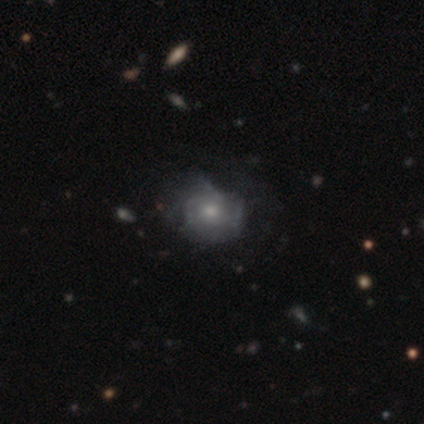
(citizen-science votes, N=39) Smooth or featured? 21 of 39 (54%) said featured or disk. Edge-on disk? 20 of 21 (95%) said no. Bar? 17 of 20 (85%) said no. Spiral arms? 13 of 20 (65%) said yes. Spiral winding? 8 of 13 (62%) said tight. Spiral arm count? 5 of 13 (38%) said can't tell. Bulge size? 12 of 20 (60%) said small. Merging? 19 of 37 (51%) said none.